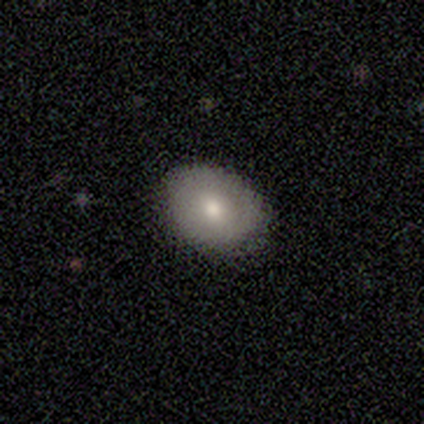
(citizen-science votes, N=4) This appears to be a smooth galaxy with no disk features (50%, tied with featured or disk) that is in between round and cigar-shaped (100%). Merging: none (100%).